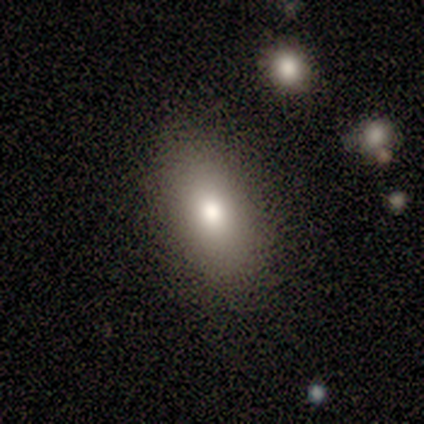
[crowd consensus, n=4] A smooth galaxy with no disk features (100%) that is in between round and cigar-shaped (75%).

Vote fractions:
- Smooth or featured? smooth: 100% / featured or disk: 0% / star or artifact: 0%
- How rounded? in between: 75% / round: 25% / cigar-shaped: 0%
- Merging? none: 100% / minor disturbance: 0% / major disturbance: 0% / merger: 0%